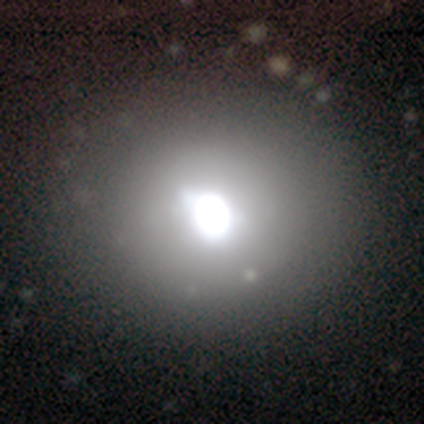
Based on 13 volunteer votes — smooth-or-featured: smooth: 54% | star or artifact: 38% | featured or disk: 8%
  how-rounded: round: 100% | in between: 0% | cigar-shaped: 0%
  merging: none: 75% | minor disturbance: 25% | major disturbance: 0% | merger: 0%